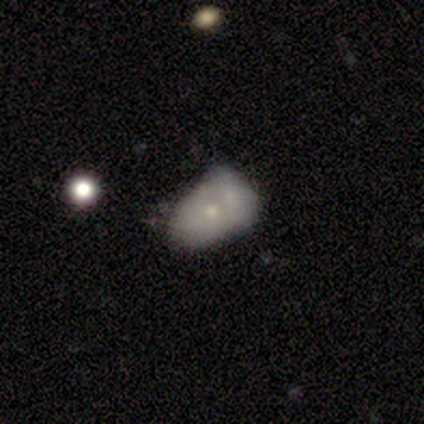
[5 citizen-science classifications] Overall: smooth (60%; featured or disk 40%). How rounded: in between (100%). Merging: minor disturbance (60%; none 20%).